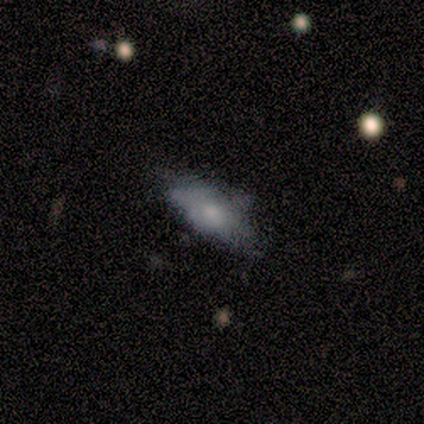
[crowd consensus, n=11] Smooth or featured: smooth — 73% (featured or disk — 27%)
How rounded: in between — 62% (cigar-shaped — 38%)
Merging: none — 64% (minor disturbance — 27%)